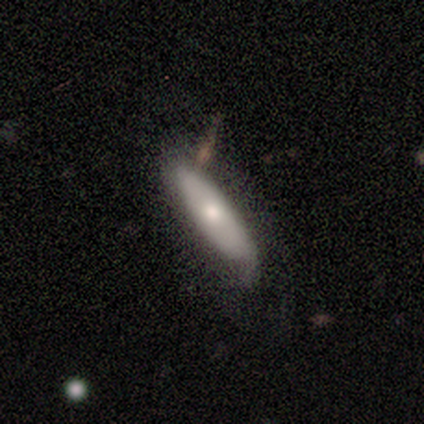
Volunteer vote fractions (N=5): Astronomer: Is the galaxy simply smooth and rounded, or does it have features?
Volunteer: smooth — 80%.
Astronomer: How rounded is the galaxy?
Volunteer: in between — 75%.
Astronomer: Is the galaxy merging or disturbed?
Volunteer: none — 80%.